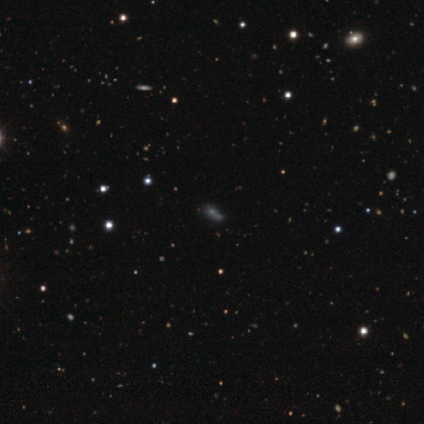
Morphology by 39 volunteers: Smooth or featured? star or artifact (51%)